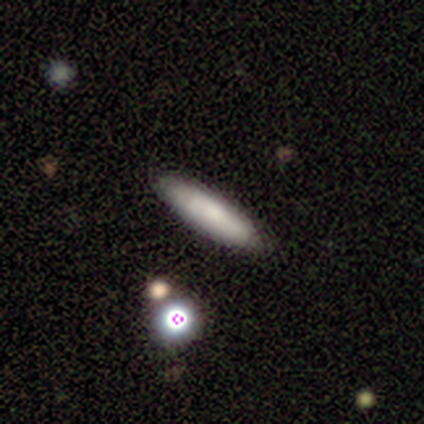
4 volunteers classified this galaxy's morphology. type=smooth (100%); roundness=cigar-shaped (100%); merging=none (100%).